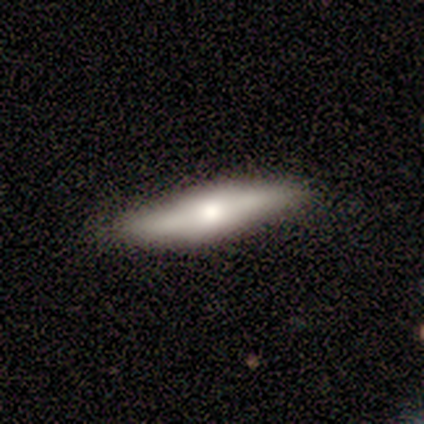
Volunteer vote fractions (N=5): Smooth or featured?
  - smooth: 60% *
  - featured or disk: 40%
  - star or artifact: 0%
How rounded?
  - cigar-shaped: 100% *
  - round: 0%
  - in between: 0%
Merging?
  - none: 80% *
  - minor disturbance: 20%
  - major disturbance: 0%
  - merger: 0%